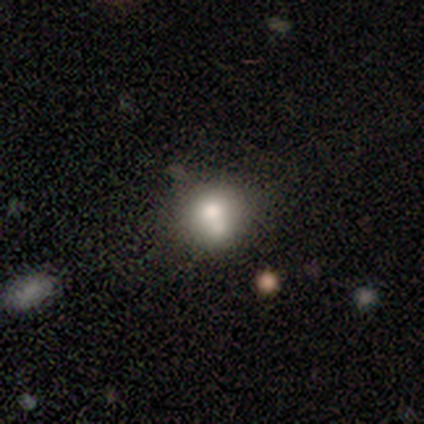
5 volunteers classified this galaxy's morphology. Overall: smooth (100%). How rounded: round (80%). Merging: none (100%).